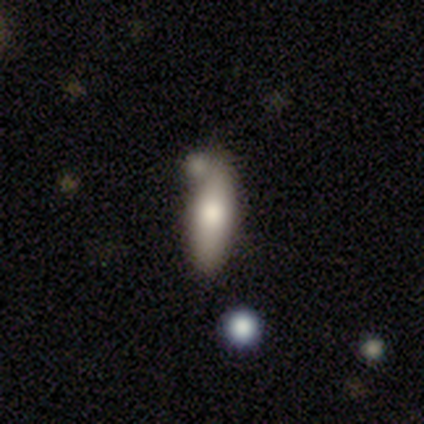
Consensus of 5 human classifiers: Morphology: type=smooth (80%); roundness=cigar-shaped (75%); merging=none (80%).